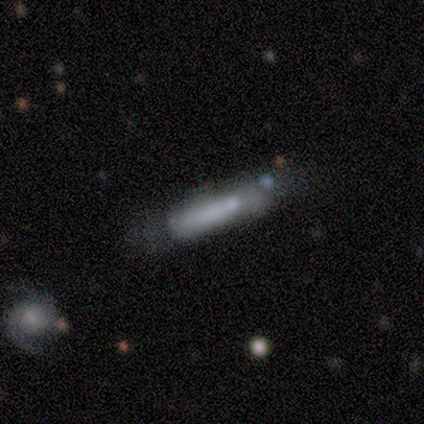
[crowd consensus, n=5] Volunteers were most divided on "merging": minor disturbance: 40%, none: 20%, major disturbance: 20%, merger: 20%. More confident: how rounded — cigar-shaped (100%); smooth or featured — smooth (80%).